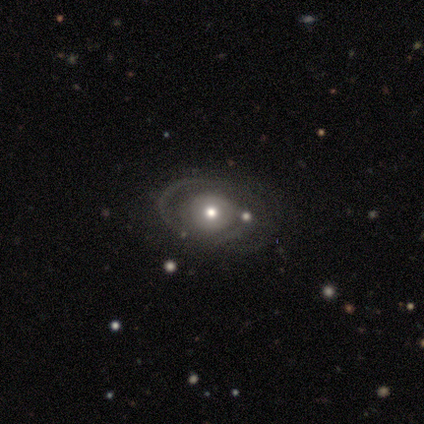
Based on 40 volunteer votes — Smooth or featured: featured or disk — 70% (smooth — 18%)
Edge-on disk: no — 96% (yes — 4%)
Bar: no — 78% (weak — 22%)
Spiral arms: yes — 56% (no — 44%)
Spiral winding: tight — 40% (tied with medium — 40%)
Spiral arm count: can't tell — 47% (2 — 33%)
Bulge size: moderate — 67% (small — 30%)
Merging: none — 77% (minor disturbance — 11%)